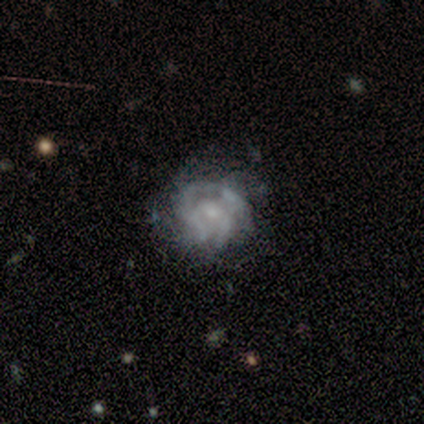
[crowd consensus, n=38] smooth-or-featured: featured or disk: 68% | smooth: 29% | star or artifact: 3%
  disk-edge-on: no: 100% | yes: 0%
    bar: no: 81% | weak: 19% | strong: 0%
    has-spiral-arms: yes: 73% | no: 27%
      spiral-winding: tight: 47% | medium: 37% | loose: 16%
      spiral-arm-count: can't tell: 63% | 2: 16% | 3: 11% | 1: 5% | 4: 5% | more than 4: 0%
    bulge-size: small: 54% | none: 35% | moderate: 8% | large: 4% | dominant: 0%
  merging: none: 54% | major disturbance: 27% | minor disturbance: 19% | merger: 0%